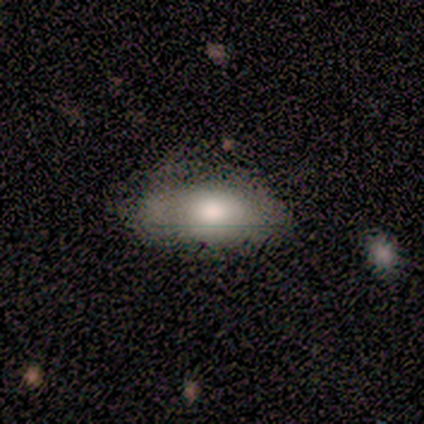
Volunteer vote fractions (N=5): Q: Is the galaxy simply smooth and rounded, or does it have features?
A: smooth — 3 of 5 (60%).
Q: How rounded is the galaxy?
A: in between — 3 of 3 (100%).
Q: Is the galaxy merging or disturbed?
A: none — 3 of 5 (60%).